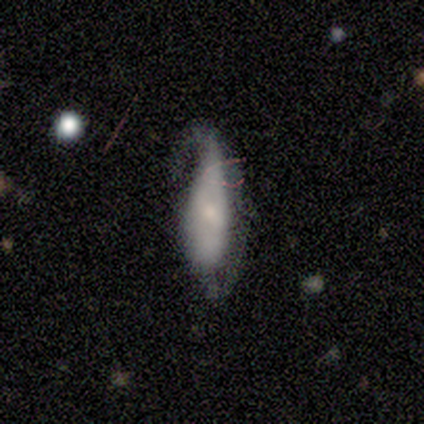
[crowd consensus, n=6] smooth 50%, star or artifact 33%, featured or disk 17%. Down the decision tree: how rounded — in between (100%); merging — minor disturbance (50%, tied with major disturbance).